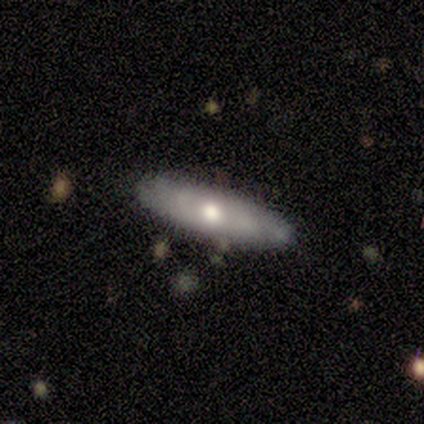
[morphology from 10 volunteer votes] Smooth or featured? featured or disk (80%)
Edge-on disk? yes (75%)
Edge-on bulge? none (50%, tied with rounded)
Merging? none (80%)